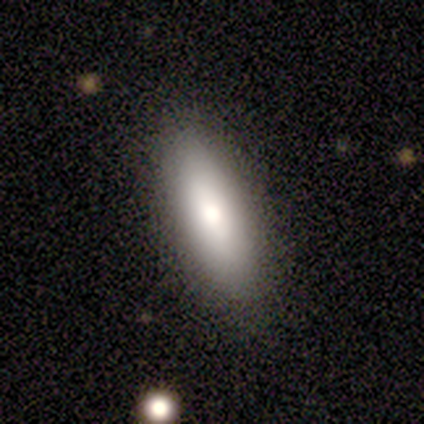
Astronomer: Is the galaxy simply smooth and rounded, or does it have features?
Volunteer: smooth — 80%.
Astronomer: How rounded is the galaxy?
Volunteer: cigar-shaped — 75%.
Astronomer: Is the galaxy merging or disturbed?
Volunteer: none — 100%.